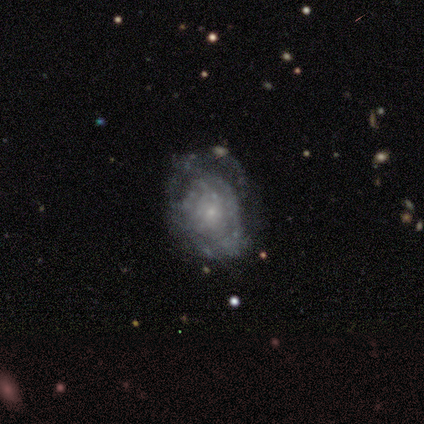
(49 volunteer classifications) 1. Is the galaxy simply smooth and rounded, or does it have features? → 78% featured or disk, 20% smooth, 2% star or artifact.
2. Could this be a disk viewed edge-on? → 100% no, 0% yes.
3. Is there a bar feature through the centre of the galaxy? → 89% no, 5% strong, 5% weak.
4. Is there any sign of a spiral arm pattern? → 53% yes, 47% no.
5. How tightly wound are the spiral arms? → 70% tight, 15% medium, 15% loose.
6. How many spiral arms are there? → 65% can't tell, 10% 1, 10% 2, 10% 3, 5% more than 4, 0% 4.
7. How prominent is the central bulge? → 76% small, 11% moderate, 11% none, 3% large, 0% dominant.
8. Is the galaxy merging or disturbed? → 48% none, 29% major disturbance, 17% minor disturbance, 6% merger.